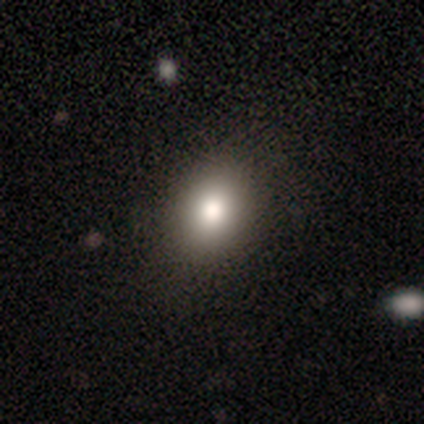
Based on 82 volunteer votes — Smooth or featured? smooth (88%)
How rounded? in between (64%)
Merging? none (86%)